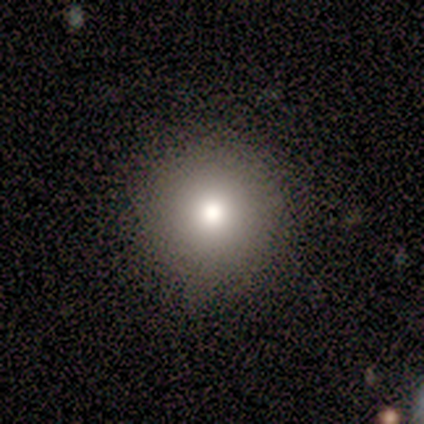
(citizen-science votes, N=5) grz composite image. It shows a smooth galaxy with no disk features (60%) that is round (100%). Merging: none (100%).